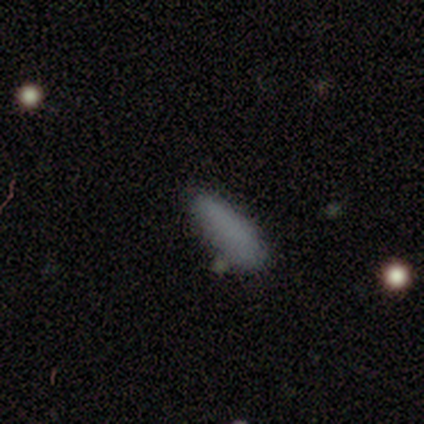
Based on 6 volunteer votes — Morphology: type=smooth (83%); roundness=cigar-shaped (60%); merging=none (67%).